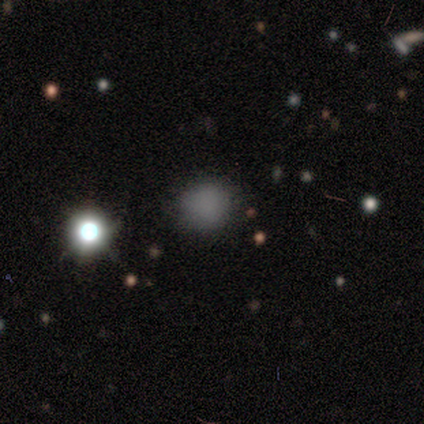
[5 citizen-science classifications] A smooth galaxy with no disk features (100%) that is round (80%). Merging: none (60%).